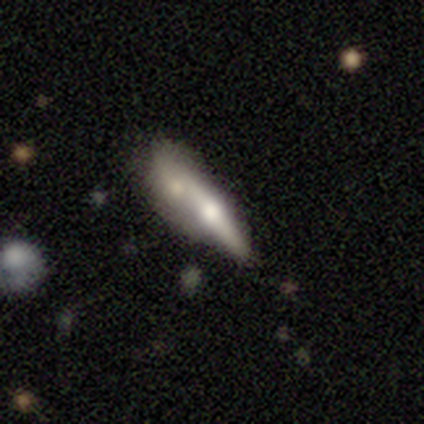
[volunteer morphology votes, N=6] Smooth or featured?
  - featured or disk: 83% *
  - smooth: 17%
  - star or artifact: 0%
Edge-on disk?
  - yes: 80% *
  - no: 20%
Edge-on bulge?
  - rounded: 75% *
  - boxy: 25%
  - none: 0%
Merging?
  - none: 50% *
  - merger: 33%
  - minor disturbance: 17%
  - major disturbance: 0%